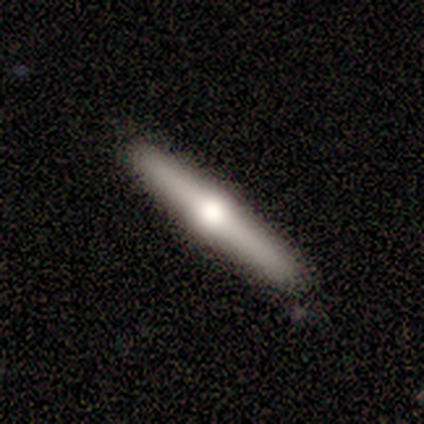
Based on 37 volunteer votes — A featured or disk galaxy (54%) viewed edge-on (100%) with a rounded central bulge (100%). Merging: none (91%).